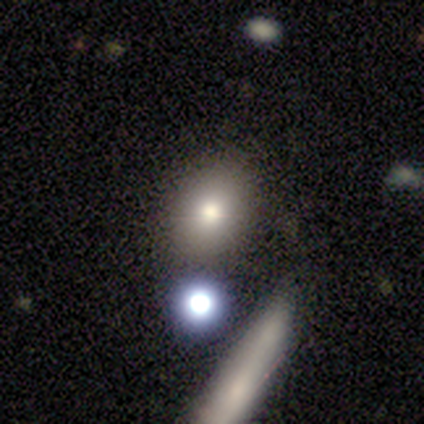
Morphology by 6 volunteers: Smooth or featured: smooth — 67% (featured or disk — 17%)
How rounded: round — 50% (tied with in between — 50%)
Merging: none — 80% (minor disturbance — 20%)